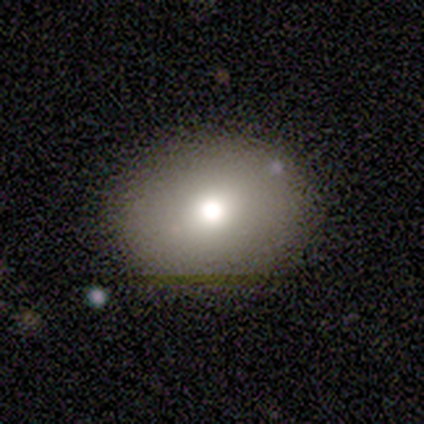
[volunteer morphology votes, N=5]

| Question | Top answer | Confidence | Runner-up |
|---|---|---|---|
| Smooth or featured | featured or disk | 60% | smooth (40%) |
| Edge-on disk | no | 100% | — |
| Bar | no | 67% | weak (33%) |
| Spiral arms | no | 100% | — |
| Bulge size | moderate | 67% | dominant (33%) |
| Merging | none | 60% | minor disturbance (40%) |